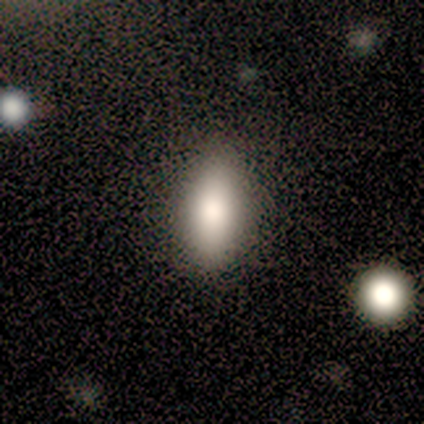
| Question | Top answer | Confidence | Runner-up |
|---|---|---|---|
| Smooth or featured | smooth | 50% | star or artifact (30%) |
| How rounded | in between | 80% | round (20%) |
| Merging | none | 100% | — |